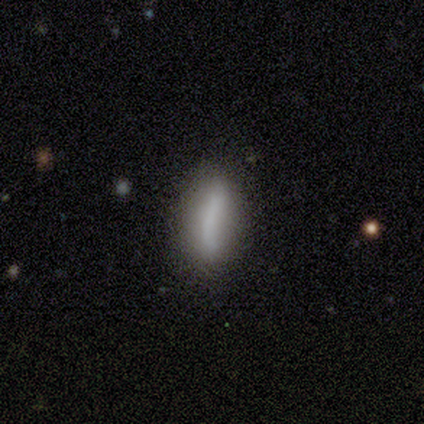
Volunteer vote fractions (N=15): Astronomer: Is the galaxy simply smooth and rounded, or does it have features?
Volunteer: featured or disk — 47% (runner-up: smooth, 40%).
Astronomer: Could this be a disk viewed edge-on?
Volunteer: no — 57% (runner-up: yes, 43%).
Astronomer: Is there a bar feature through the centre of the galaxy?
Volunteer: no — 75%.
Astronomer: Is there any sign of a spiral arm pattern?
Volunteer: no — 75%.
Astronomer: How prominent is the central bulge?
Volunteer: none — 75%.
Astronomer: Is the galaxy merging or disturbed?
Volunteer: none — 69%.